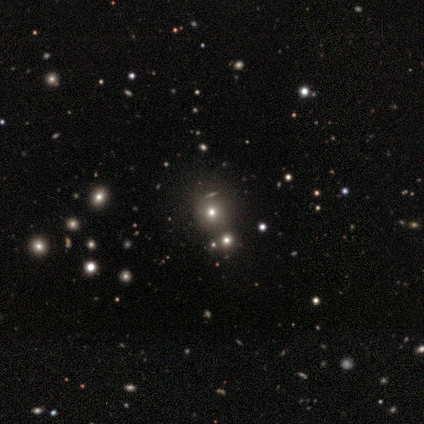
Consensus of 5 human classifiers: smooth-or-featured: smooth: 100% | featured or disk: 0% | star or artifact: 0%
  how-rounded: round: 100% | in between: 0% | cigar-shaped: 0%
  merging: none: 80% | merger: 20% | minor disturbance: 0% | major disturbance: 0%